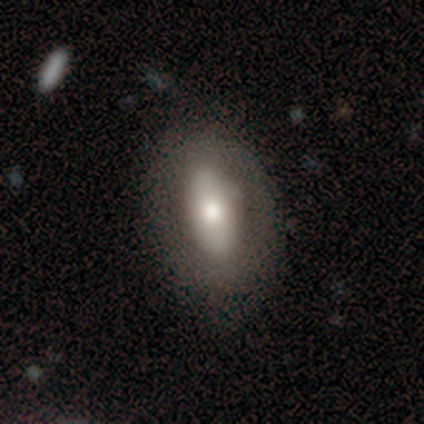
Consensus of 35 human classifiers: A featured or disk galaxy (51%) with no bar (47%), no spiral arms (93%) and a moderate central bulge (40%).

Vote fractions:
- Smooth or featured? featured or disk: 51% / smooth: 40% / star or artifact: 9%
- Edge-on disk? no: 83% / yes: 17%
- Bar? no: 47% / strong: 40% / weak: 13%
- Spiral arms? no: 93% / yes: 7%
- Bulge size? moderate: 40% / large: 33% / small: 27% / dominant: 0% / none: 0%
- Merging? none: 91% / minor disturbance: 9% / major disturbance: 0% / merger: 0%